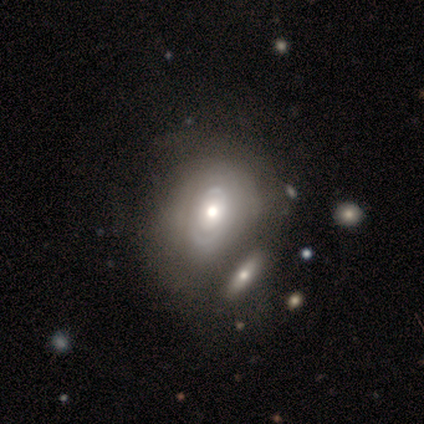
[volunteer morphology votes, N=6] featured or disk 83%, smooth 17%, star or artifact 0%. Down the decision tree: edge-on disk — no (80%); bar — no (100%); spiral arms — yes (75%); spiral arm count — can't tell (67%); spiral winding — tight (100%); bulge size — moderate (100%); merging — minor disturbance (50%).